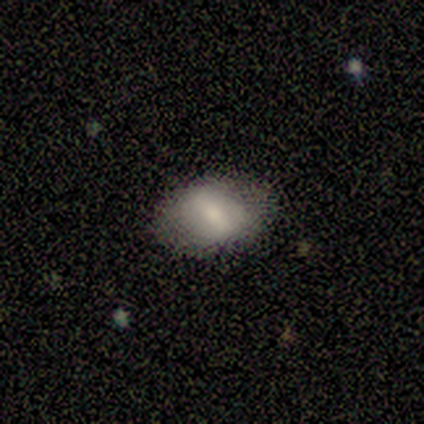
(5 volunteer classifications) A smooth galaxy with no disk features (80%) that is in between round and cigar-shaped (75%). Merging: none (80%).